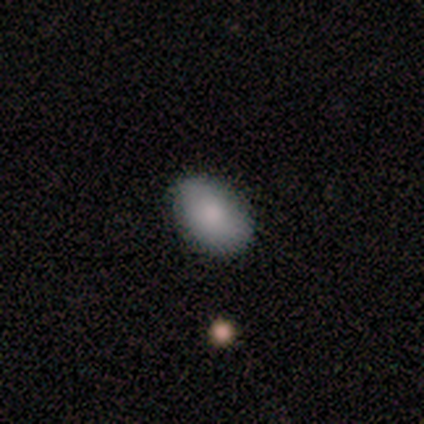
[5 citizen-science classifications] smooth_or_featured: smooth (p=0.60) [alt: featured or disk p=0.40]
how_rounded: in between (p=0.67) [alt: round p=0.33]
merging: none (p=1.00)